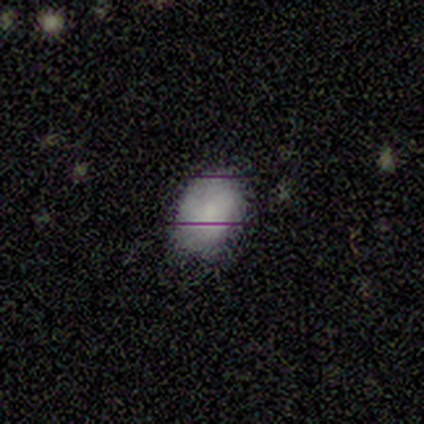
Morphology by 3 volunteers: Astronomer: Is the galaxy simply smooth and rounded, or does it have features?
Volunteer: smooth — 67%.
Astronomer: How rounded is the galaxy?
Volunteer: in between — 100%.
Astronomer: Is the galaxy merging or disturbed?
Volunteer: none — 50%, tied with minor disturbance at 50%.